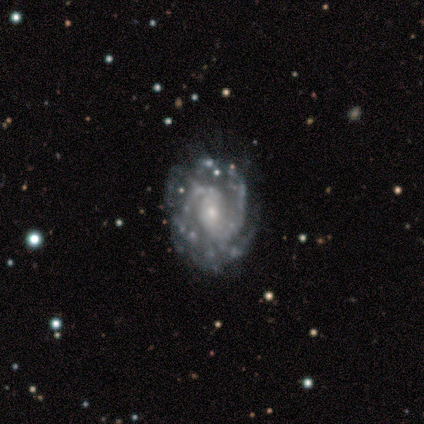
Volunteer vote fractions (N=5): This appears to be a featured or disk galaxy (80%) with no bar (75%), 3 (50%) medium (100%) spiral arms (100%) and a moderate central bulge (50%, tied with small). Merging: none (60%).